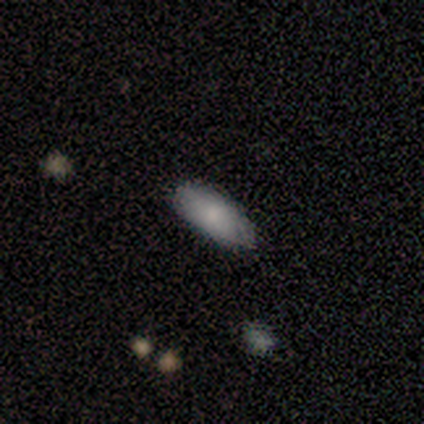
Volunteers were most divided on "how rounded": in between: 80%, cigar-shaped: 20%, round: 0%. More confident: smooth or featured — smooth (100%); merging — none (100%).